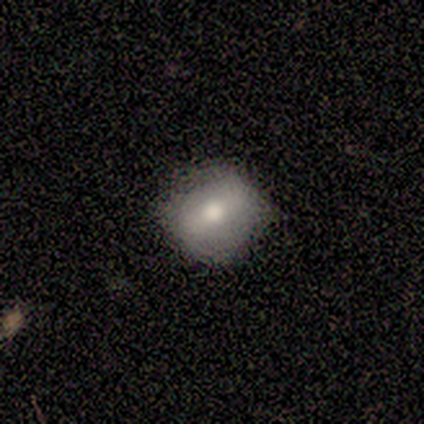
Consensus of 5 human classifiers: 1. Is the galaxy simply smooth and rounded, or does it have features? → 60% smooth, 40% featured or disk, 0% star or artifact.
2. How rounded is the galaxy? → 100% in between, 0% round, 0% cigar-shaped.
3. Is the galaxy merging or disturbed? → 60% minor disturbance, 40% none, 0% major disturbance, 0% merger.